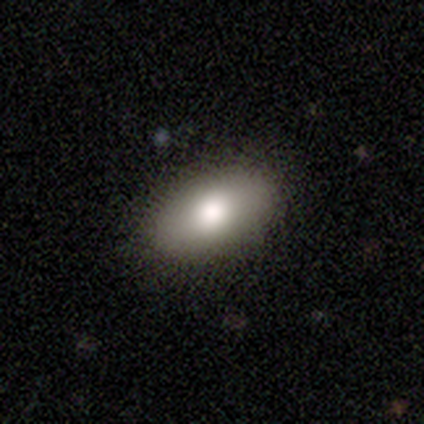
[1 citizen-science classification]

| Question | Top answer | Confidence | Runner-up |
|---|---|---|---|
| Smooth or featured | star or artifact | 100% | — |